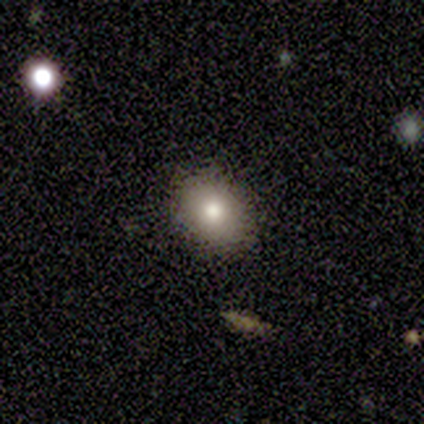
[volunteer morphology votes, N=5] Smooth or featured? smooth (60%)
How rounded? round (67%)
Merging? none (100%)